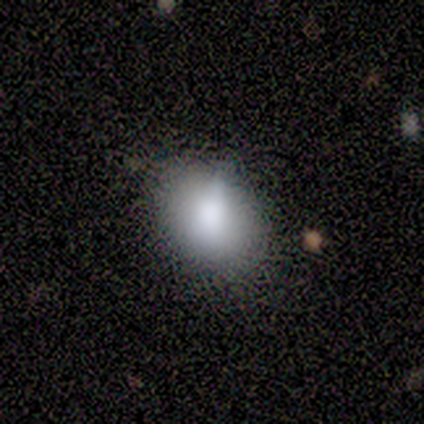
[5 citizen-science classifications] Volunteers were most divided on "how rounded": in between: 60%, round: 40%, cigar-shaped: 0%. More confident: smooth or featured — smooth (100%); merging — minor disturbance (60%).